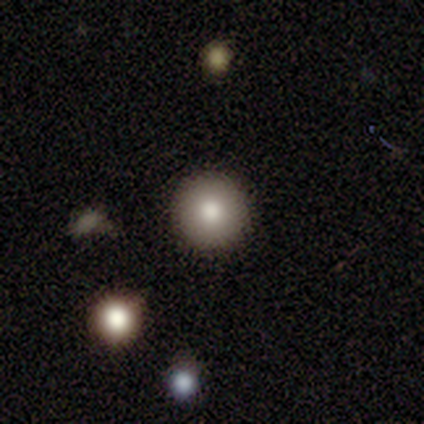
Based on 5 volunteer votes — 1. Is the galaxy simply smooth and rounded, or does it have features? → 100% smooth, 0% featured or disk, 0% star or artifact.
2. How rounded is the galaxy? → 100% round, 0% in between, 0% cigar-shaped.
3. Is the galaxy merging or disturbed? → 100% none, 0% minor disturbance, 0% major disturbance, 0% merger.